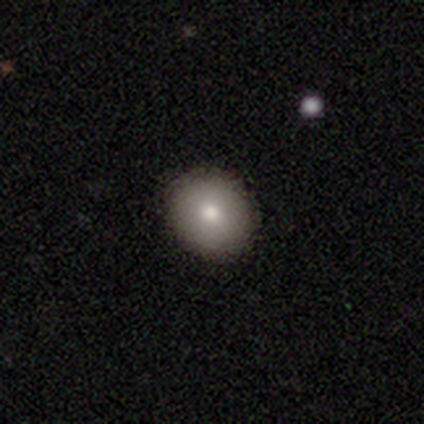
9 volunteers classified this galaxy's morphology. smooth_or_featured: smooth (p=0.78) [alt: featured or disk p=0.22]
how_rounded: round (p=0.71) [alt: in between p=0.29]
merging: none (p=1.00)